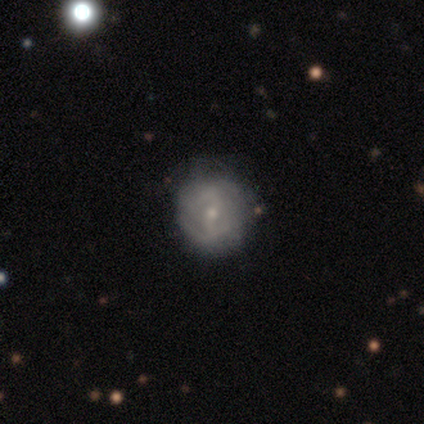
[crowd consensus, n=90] Smooth or featured? 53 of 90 (59%) said featured or disk. Edge-on disk? 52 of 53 (98%) said no. Bar? 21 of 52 (40%) said no. Spiral arms? 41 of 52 (79%) said yes. Spiral winding? 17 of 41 (41%) said tight. Spiral arm count? 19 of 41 (46%) said can't tell. Bulge size? 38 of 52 (73%) said small. Merging? 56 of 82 (68%) said none.